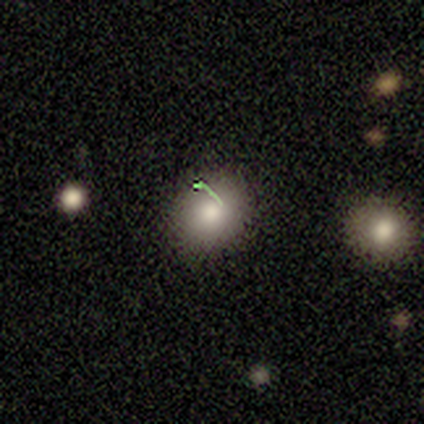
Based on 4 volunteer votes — This appears to be a smooth galaxy with no disk features (100%) that is round (50%, tied with in between). Merging: none (100%).